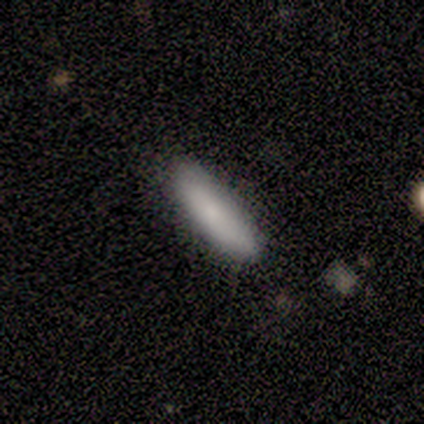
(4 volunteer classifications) Q: Smooth or featured?
A: smooth (100%)
Q: How rounded?
A: in between (50%); tied with: cigar-shaped (50%)
Q: Merging?
A: none (100%)